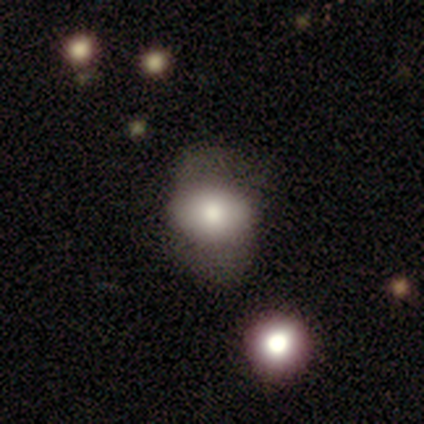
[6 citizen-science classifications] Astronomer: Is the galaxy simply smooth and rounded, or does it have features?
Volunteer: featured or disk — 67%.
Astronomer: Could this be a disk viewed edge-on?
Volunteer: no — 75%.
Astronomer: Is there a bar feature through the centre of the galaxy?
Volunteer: no — 100%.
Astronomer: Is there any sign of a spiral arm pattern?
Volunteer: no — 100%.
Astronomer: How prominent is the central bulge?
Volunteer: moderate — 67%.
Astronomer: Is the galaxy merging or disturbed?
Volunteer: minor disturbance — 67%.